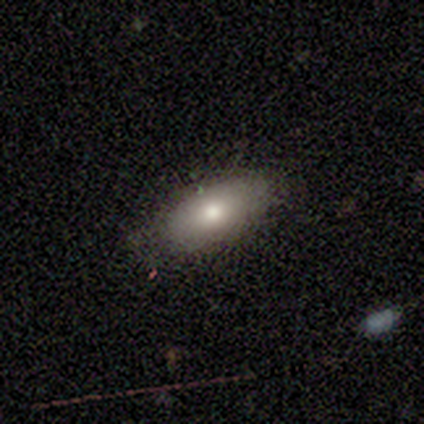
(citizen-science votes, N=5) Morphology: type=smooth (60%); roundness=in between (67%); merging=none (100%).